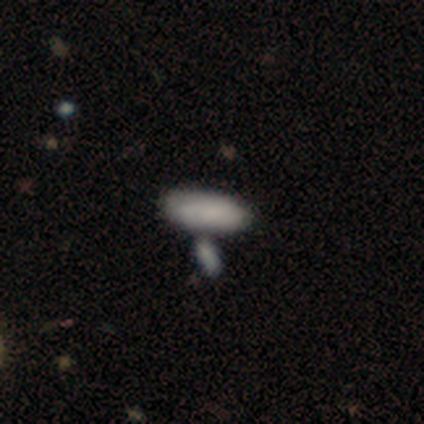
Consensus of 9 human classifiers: smooth_or_featured: smooth (p=0.89) [alt: featured or disk p=0.11]
how_rounded: in between (p=0.88) [alt: cigar-shaped p=0.12]
merging: none (p=0.56) [alt: merger p=0.33]